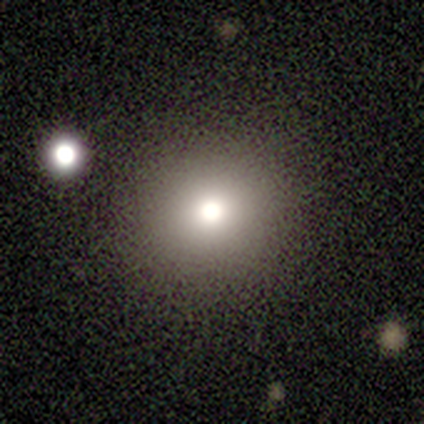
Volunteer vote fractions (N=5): Q: Smooth or featured?
A: smooth (100%)
Q: How rounded?
A: round (80%); runner-up: in between (20%)
Q: Merging?
A: none (60%); runner-up: minor disturbance (20%)